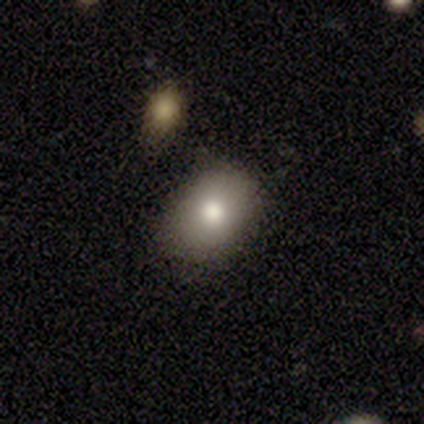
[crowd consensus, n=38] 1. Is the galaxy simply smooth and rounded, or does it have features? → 74% smooth, 13% featured or disk, 13% star or artifact.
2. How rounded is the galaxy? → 57% in between, 43% round, 0% cigar-shaped.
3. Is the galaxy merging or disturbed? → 88% none, 6% merger, 3% minor disturbance, 3% major disturbance.